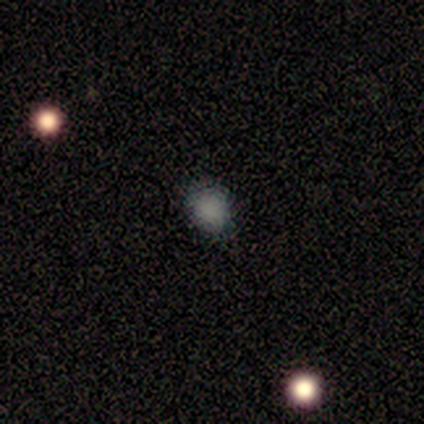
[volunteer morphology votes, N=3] Smooth or featured? 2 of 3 (67%) said smooth. How rounded? 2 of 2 (100%) said round. Merging? 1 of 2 (50%, tied with major disturbance) said none.